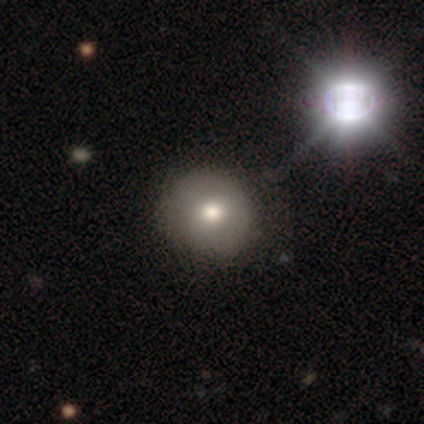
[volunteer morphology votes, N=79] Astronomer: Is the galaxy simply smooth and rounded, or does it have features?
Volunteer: smooth — 75%.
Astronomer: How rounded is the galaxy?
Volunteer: round — 95%.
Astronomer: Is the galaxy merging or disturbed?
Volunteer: none — 41%.